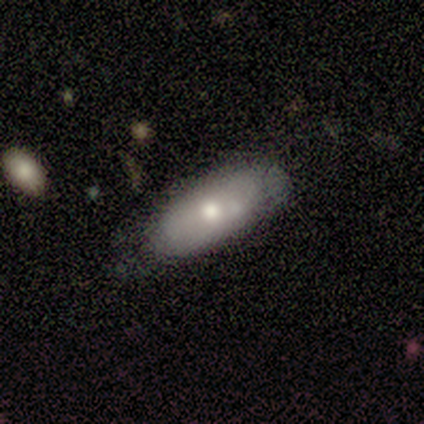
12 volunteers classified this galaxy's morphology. This is possibly a smooth galaxy (50%, tied with featured or disk). How rounded: clearly in between (100%). Merging: clearly none (92%).